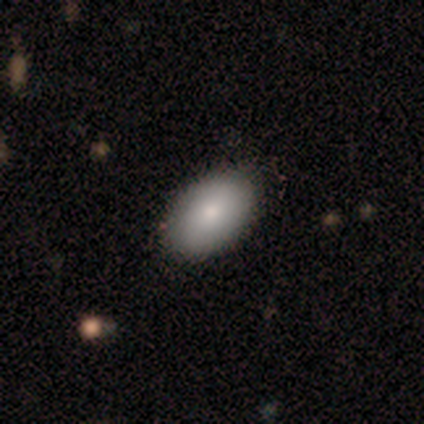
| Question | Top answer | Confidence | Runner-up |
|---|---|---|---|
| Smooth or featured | smooth | 100% | — |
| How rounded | in between | 100% | — |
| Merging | none | 100% | — |